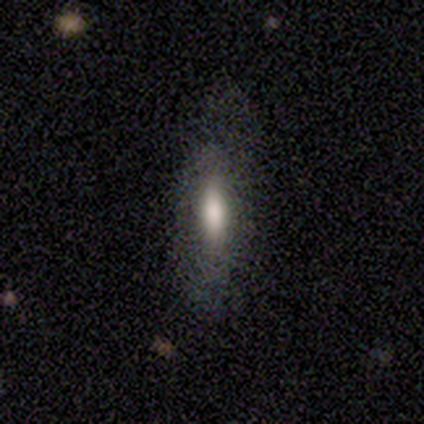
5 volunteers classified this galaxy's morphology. smooth 100%, featured or disk 0%, star or artifact 0%. Down the decision tree: how rounded — in between (80%); merging — none (80%).